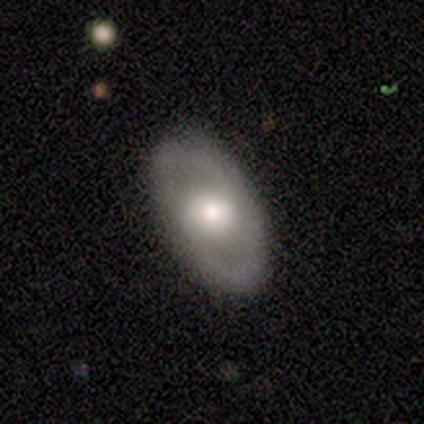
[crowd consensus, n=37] Smooth or featured: featured or disk — 51% (smooth — 35%)
Edge-on disk: no — 100%
Bar: no — 79% (weak — 21%)
Spiral arms: yes — 63% (no — 37%)
Spiral winding: medium — 58% (loose — 33%)
Spiral arm count: 2 — 92% (1 — 8%)
Bulge size: moderate — 63% (large — 21%)
Merging: none — 91% (minor disturbance — 6%)